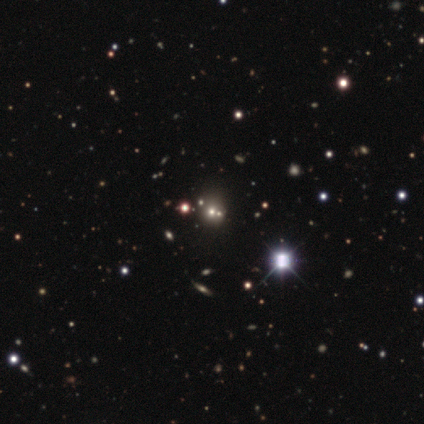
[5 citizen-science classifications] Morphology: type=smooth (40%, tied with featured or disk); roundness=round (100%); merging=none (50%).